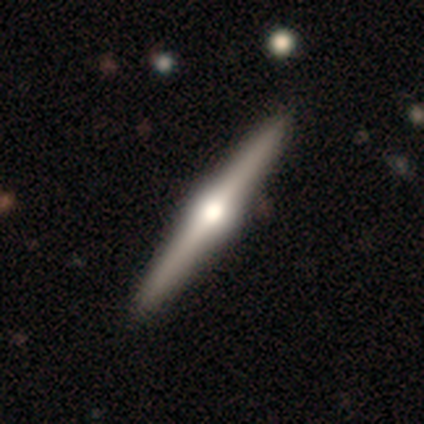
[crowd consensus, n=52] smooth-or-featured: featured or disk: 81% | smooth: 12% | star or artifact: 8%
  disk-edge-on: yes: 100% | no: 0%
    edge-on-bulge: rounded: 98% | none: 2% | boxy: 0%
  merging: none: 92% | minor disturbance: 6% | major disturbance: 2% | merger: 0%